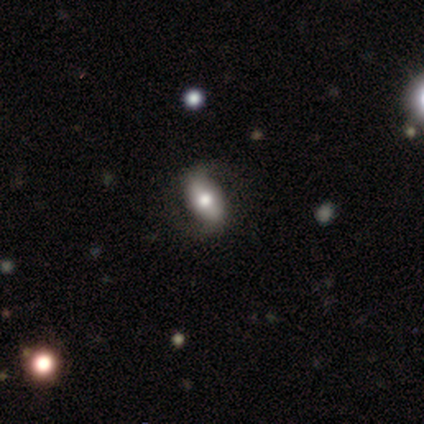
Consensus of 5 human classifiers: This appears to be a featured or disk galaxy (80%) with a strong bar (67%), 2 (100%) loose (67%) spiral arms (100%) and a moderate central bulge (67%). Merging: none (60%).